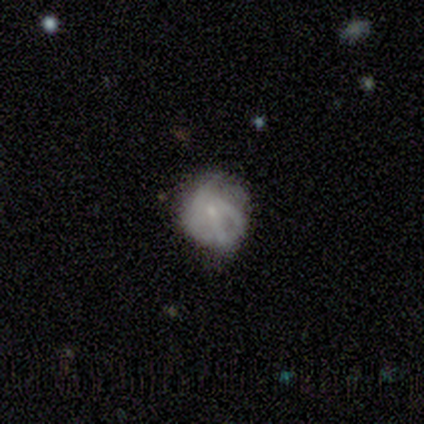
This appears to be a smooth galaxy with no disk features (75%) that is in between round and cigar-shaped (67%). Merging: minor disturbance (67%).